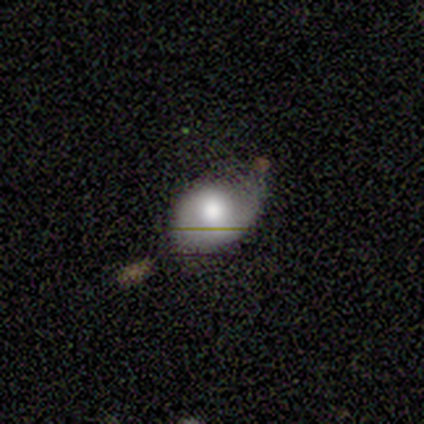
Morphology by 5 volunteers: Q: Smooth or featured?
A: smooth (60%); runner-up: featured or disk (20%)
Q: How rounded?
A: in between (100%)
Q: Merging?
A: none (50%); runner-up: minor disturbance (25%)